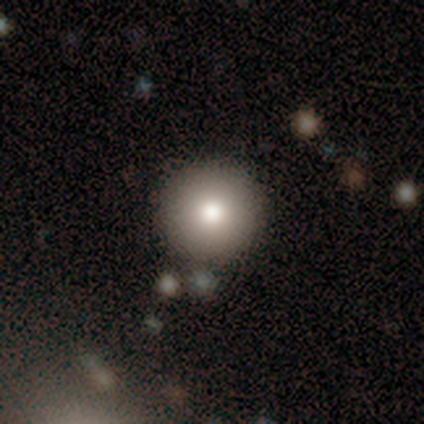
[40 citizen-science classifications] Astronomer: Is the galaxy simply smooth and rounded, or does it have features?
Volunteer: smooth — 82%.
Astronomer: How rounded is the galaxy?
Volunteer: round — 97%.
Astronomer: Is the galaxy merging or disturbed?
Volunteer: none — 84%.